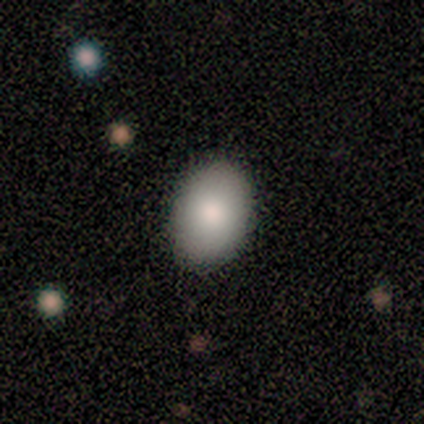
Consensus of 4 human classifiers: This is clearly a smooth galaxy (100%). How rounded: likely in between (75%). Merging: clearly none (100%).